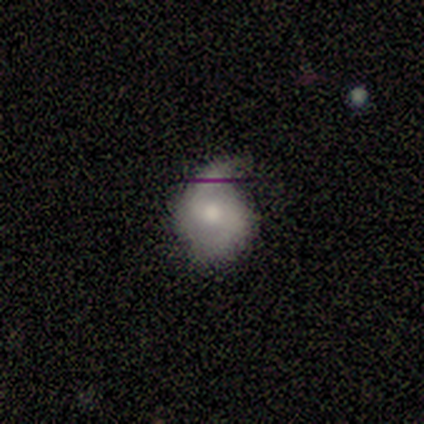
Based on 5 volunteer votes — Smooth or featured: featured or disk — 100%
Edge-on disk: no — 100%
Bar: no — 60% (weak — 40%)
Spiral arms: yes — 100%
Spiral winding: medium — 40% (tied with loose — 40%)
Spiral arm count: 2 — 80% (1 — 20%)
Bulge size: moderate — 100%
Merging: none — 80% (minor disturbance — 20%)